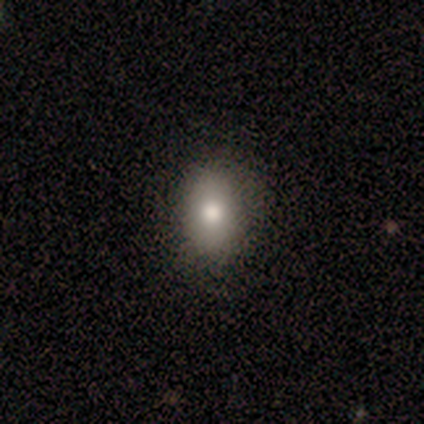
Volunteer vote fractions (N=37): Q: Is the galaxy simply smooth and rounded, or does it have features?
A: smooth — 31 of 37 (84%).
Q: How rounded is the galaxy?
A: in between — 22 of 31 (71%).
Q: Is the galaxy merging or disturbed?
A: none — 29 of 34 (85%).